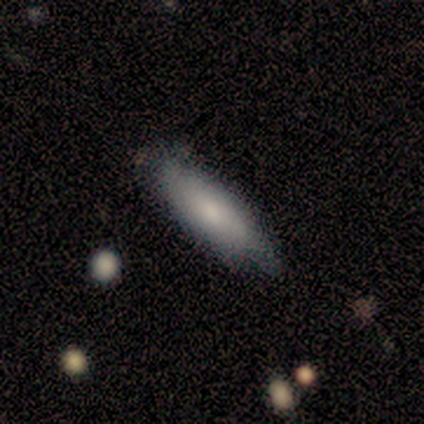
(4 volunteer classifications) Smooth or featured?
  - smooth: 75% *
  - featured or disk: 25%
  - star or artifact: 0%
How rounded?
  - cigar-shaped: 67% *
  - in between: 33%
  - round: 0%
Merging?
  - none: 75% *
  - minor disturbance: 25%
  - major disturbance: 0%
  - merger: 0%